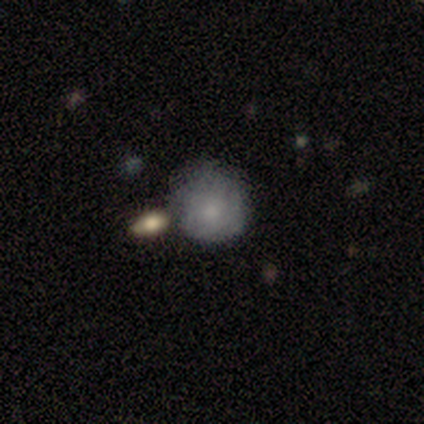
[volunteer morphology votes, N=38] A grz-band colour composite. It shows a smooth galaxy with no disk features (79%) that is round (93%). Merging: none (74%).